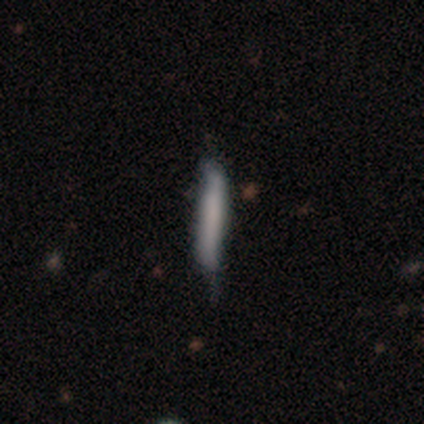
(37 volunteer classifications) Morphology: type=smooth (65%); roundness=cigar-shaped (96%); merging=minor disturbance (44%).